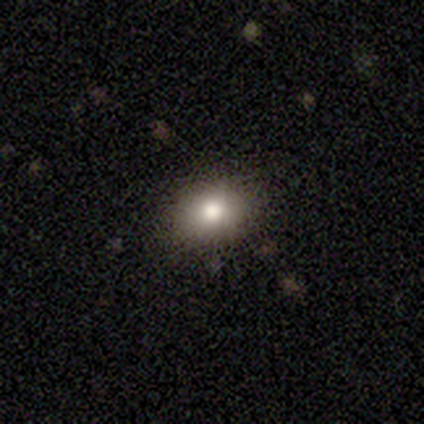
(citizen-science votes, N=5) This is clearly a smooth galaxy (80%). How rounded: possibly round (50%, tied with in between). Merging: clearly none (100%).